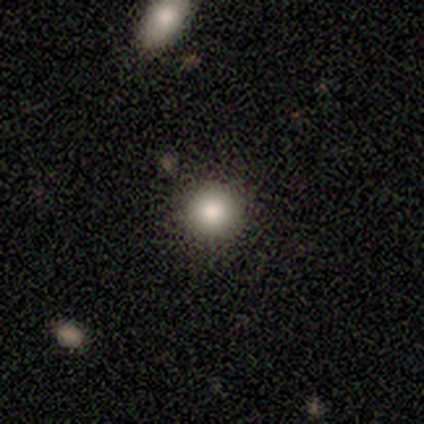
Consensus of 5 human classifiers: Smooth or featured: smooth — 80% (star or artifact — 20%)
How rounded: round — 75% (in between — 25%)
Merging: none — 75% (minor disturbance — 25%)